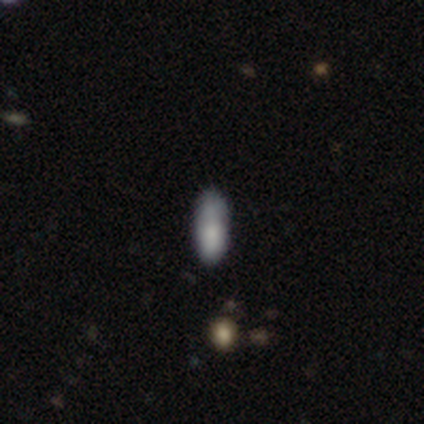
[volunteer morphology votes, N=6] Smooth or featured? 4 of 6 (67%) said smooth. How rounded? 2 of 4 (50%, tied with cigar-shaped) said in between. Merging? 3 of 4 (75%) said none.